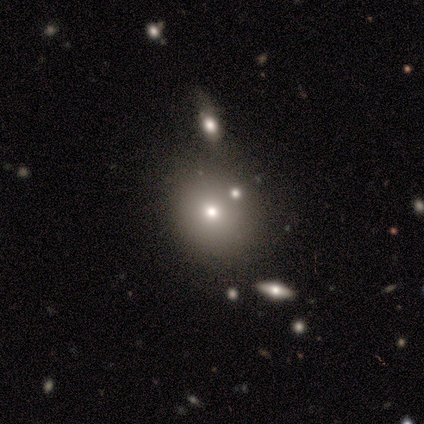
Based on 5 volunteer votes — smooth-or-featured: smooth: 80% | star or artifact: 20% | featured or disk: 0%
  how-rounded: round: 75% | in between: 25% | cigar-shaped: 0%
  merging: none: 75% | minor disturbance: 25% | major disturbance: 0% | merger: 0%